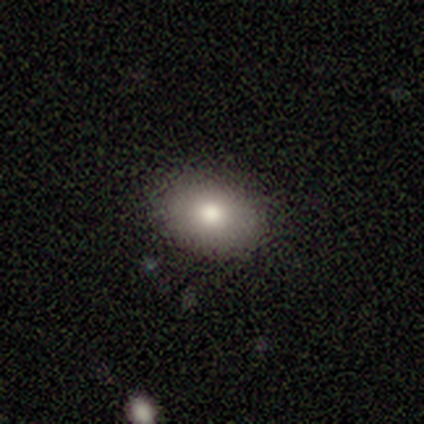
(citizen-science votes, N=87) Smooth or featured: smooth — 80% (featured or disk — 13%)
How rounded: in between — 90% (round — 9%)
Merging: none — 88% (minor disturbance — 9%)